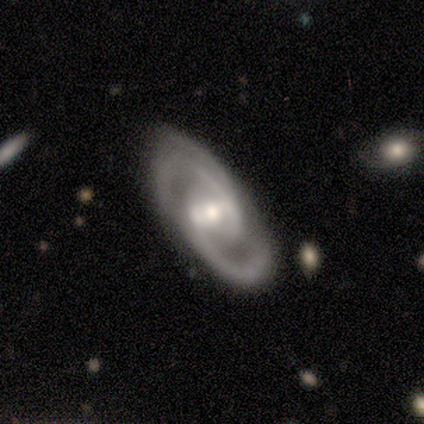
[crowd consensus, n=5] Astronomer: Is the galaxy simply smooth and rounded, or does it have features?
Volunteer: featured or disk — 80%.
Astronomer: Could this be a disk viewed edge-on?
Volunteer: no — 75%.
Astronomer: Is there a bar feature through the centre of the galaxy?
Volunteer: weak — 67%.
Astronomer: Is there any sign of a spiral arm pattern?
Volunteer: yes — 100%.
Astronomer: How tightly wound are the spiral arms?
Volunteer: medium — 67%.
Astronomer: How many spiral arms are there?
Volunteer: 2 — 67%.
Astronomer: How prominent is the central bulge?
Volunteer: moderate — 67%.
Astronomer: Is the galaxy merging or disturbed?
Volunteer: none — 80%.